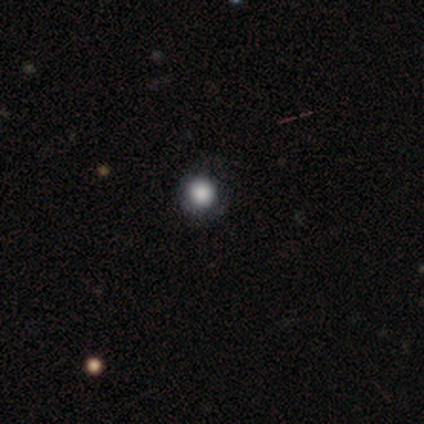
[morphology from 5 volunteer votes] Smooth or featured: smooth — 100%
How rounded: round — 100%
Merging: none — 80% (minor disturbance — 20%)